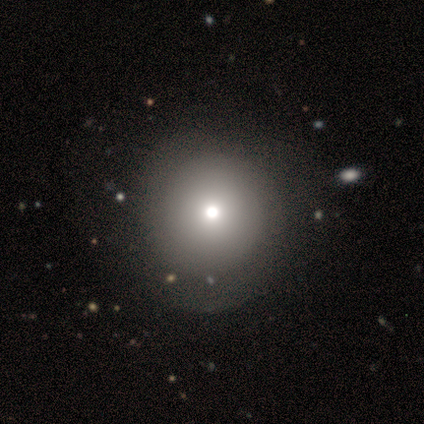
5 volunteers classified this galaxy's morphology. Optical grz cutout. It shows a smooth galaxy with no disk features (60%) that is round (100%). Merging: none (100%).